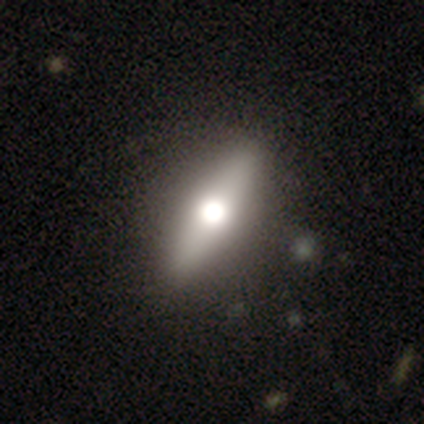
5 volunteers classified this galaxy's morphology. Smooth or featured: smooth — 40% (tied with featured or disk — 40%)
How rounded: cigar-shaped — 100%
Merging: none — 100%